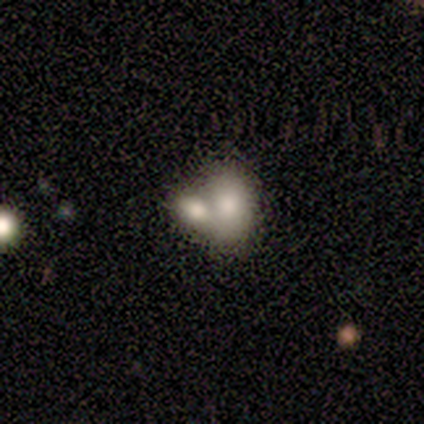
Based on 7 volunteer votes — Smooth or featured? 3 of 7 (43%, tied with featured or disk) said smooth. How rounded? 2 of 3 (67%) said in between. Merging? 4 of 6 (67%) said merger.